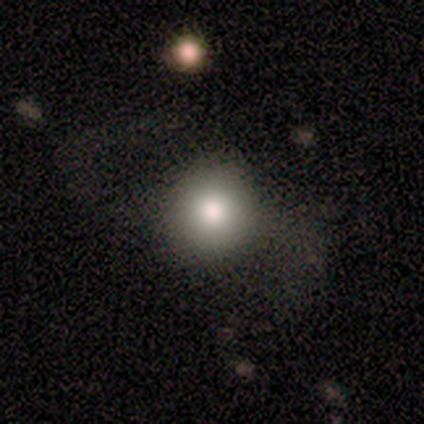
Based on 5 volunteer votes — featured or disk 60%, smooth 40%, star or artifact 0%. Down the decision tree: edge-on disk — no (100%); bar — no (100%); spiral arms — no (100%); bulge size — moderate (67%); merging — none (60%).